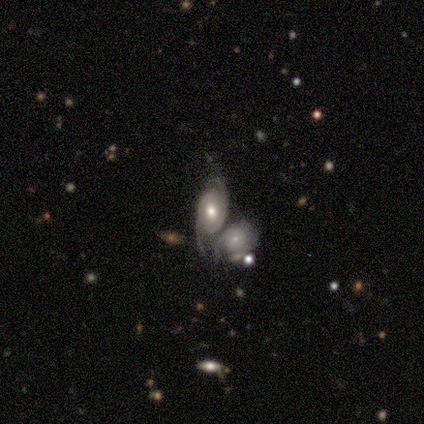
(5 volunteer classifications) Smooth or featured: featured or disk — 60% (smooth — 40%)
Edge-on disk: no — 100%
Bar: no — 67% (weak — 33%)
Spiral arms: yes — 100%
Spiral winding: tight — 33% (tied with medium — 33%; loose — 33%)
Spiral arm count: 2 — 100%
Bulge size: moderate — 100%
Merging: merger — 100%